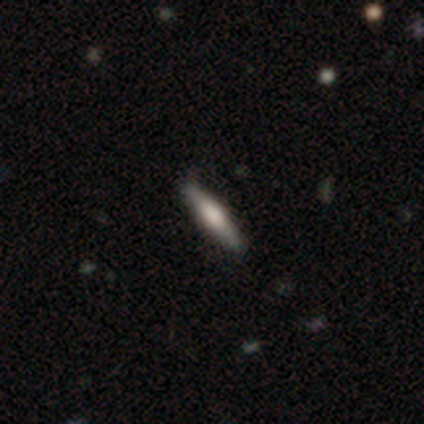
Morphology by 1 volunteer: Consensus on every question: smooth or featured — smooth (100%); how rounded — cigar-shaped (100%); merging — none (100%).